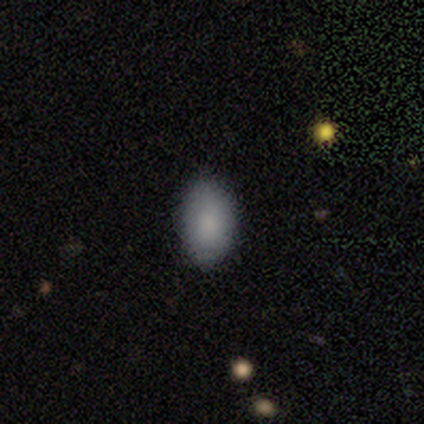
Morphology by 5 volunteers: This is clearly a smooth galaxy (100%). How rounded: clearly in between (100%). Merging: clearly none (100%).